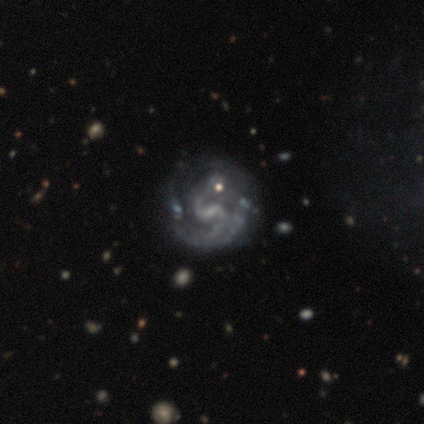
Smooth or featured?
  - featured or disk: 100% *
  - smooth: 0%
  - star or artifact: 0%
Edge-on disk?
  - no: 100% *
  - yes: 0%
Bar?
  - weak: 100% *
  - strong: 0%
  - no: 0%
Spiral arms?
  - yes: 75% *
  - no: 25%
Spiral winding?
  - tight: 33% * (tied)
  - medium: 33% * (tied)
  - loose: 33% * (tied)
Spiral arm count?
  - 2: 67% *
  - 3: 33%
  - 1: 0%
  - 4: 0%
  - more than 4: 0%
  - can't tell: 0%
Bulge size?
  - small: 75% *
  - none: 25%
  - dominant: 0%
  - large: 0%
  - moderate: 0%
Merging?
  - minor disturbance: 75% *
  - none: 25%
  - major disturbance: 0%
  - merger: 0%